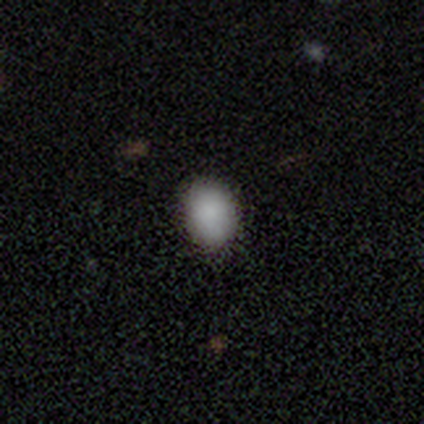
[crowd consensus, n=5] smooth-or-featured: smooth: 80% | star or artifact: 20% | featured or disk: 0%
  how-rounded: round: 50% (tied) | in between: 50% (tied) | cigar-shaped: 0%
  merging: none: 75% | major disturbance: 25% | minor disturbance: 0% | merger: 0%